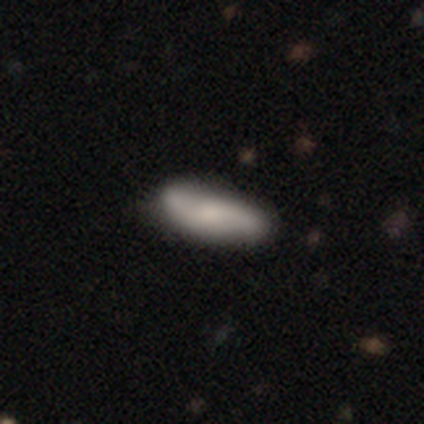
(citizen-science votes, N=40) Smooth or featured: featured or disk — 62% (smooth — 32%)
Edge-on disk: no — 80% (yes — 20%)
Bar: no — 55% (weak — 25%)
Spiral arms: yes — 85% (no — 15%)
Spiral winding: loose — 76% (medium — 18%)
Spiral arm count: 2 — 100%
Bulge size: moderate — 45% (small — 25%)
Merging: none — 58% (merger — 11%)